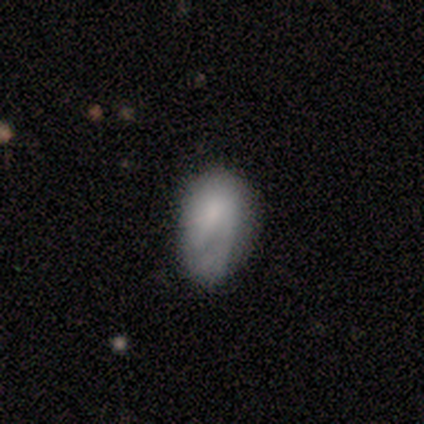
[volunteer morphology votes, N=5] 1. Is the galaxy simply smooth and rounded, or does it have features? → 60% smooth, 40% featured or disk, 0% star or artifact.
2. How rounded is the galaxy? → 100% in between, 0% round, 0% cigar-shaped.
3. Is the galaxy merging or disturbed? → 100% minor disturbance, 0% none, 0% major disturbance, 0% merger.